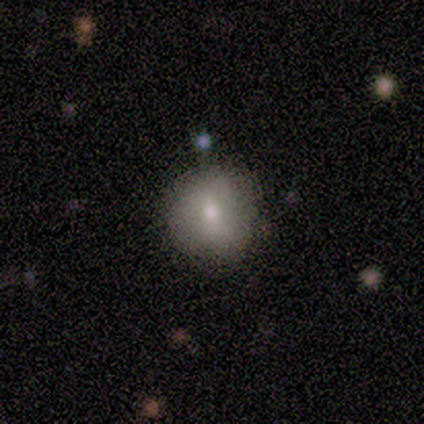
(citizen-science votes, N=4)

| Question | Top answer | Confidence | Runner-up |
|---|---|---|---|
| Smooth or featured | smooth | 75% | star or artifact (25%) |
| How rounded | round | 100% | — |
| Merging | none | 100% | — |